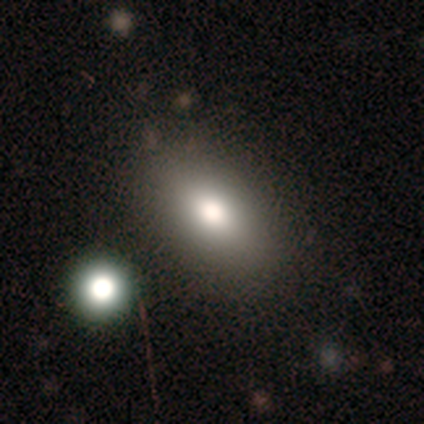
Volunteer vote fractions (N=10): Smooth or featured? 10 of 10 (100%) said smooth. How rounded? 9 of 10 (90%) said in between. Merging? 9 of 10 (90%) said none.